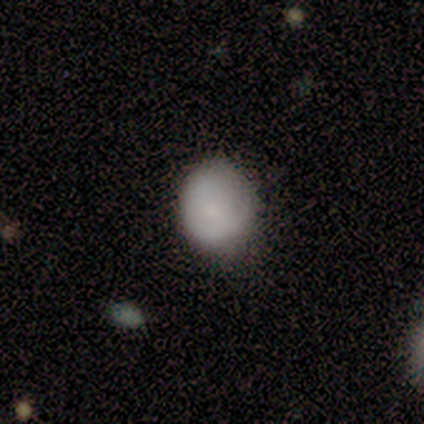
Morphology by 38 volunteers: type=smooth (82%); roundness=round (61%); merging=none (52%).